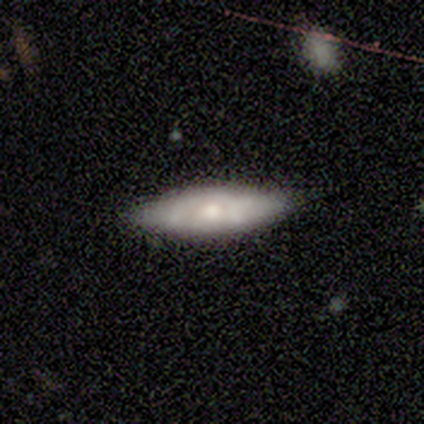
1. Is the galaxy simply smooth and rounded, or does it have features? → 75% smooth, 25% featured or disk, 0% star or artifact.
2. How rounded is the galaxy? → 67% in between, 33% cigar-shaped, 0% round.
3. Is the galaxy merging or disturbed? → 100% none, 0% minor disturbance, 0% major disturbance, 0% merger.